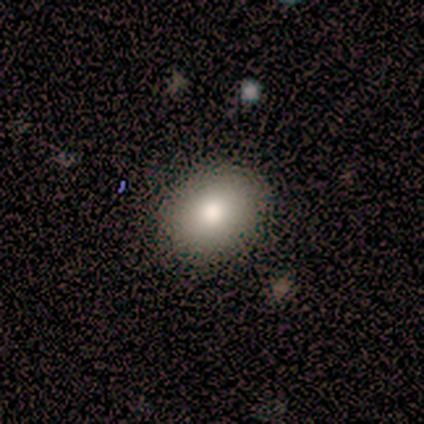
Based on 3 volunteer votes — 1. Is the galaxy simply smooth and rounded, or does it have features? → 67% smooth, 33% star or artifact, 0% featured or disk.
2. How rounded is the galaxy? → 50% round (tied), 50% in between (tied), 0% cigar-shaped.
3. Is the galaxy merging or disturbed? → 100% none, 0% minor disturbance, 0% major disturbance, 0% merger.